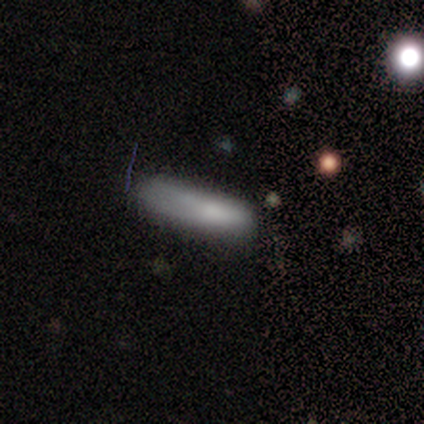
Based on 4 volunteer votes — A smooth galaxy with no disk features (75%) that is cigar-shaped (100%). Merging: none (50%, tied with minor disturbance).